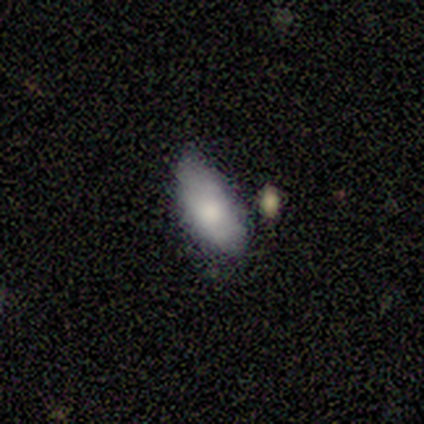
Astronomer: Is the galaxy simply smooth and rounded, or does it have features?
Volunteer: smooth — 75%.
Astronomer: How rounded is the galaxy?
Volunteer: in between — 100%.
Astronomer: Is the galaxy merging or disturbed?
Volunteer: none — 75%.